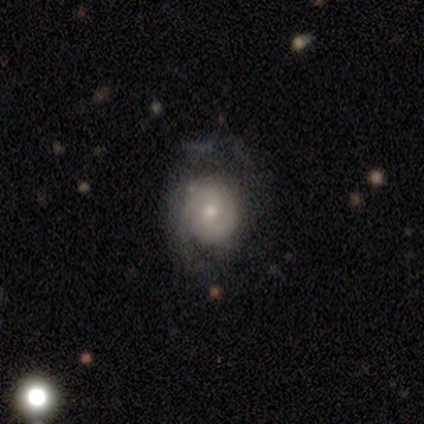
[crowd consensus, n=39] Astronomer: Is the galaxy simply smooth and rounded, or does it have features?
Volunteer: featured or disk — 77%.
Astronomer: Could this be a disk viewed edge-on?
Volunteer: no — 93%.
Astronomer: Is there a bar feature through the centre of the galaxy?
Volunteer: no — 68%.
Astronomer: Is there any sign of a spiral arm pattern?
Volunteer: yes — 96%.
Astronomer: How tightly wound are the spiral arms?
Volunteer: tight — 56% (runner-up: medium, 37%).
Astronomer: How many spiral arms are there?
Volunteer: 2 — 56%.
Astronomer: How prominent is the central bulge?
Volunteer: moderate — 46%, tied with small at 46%.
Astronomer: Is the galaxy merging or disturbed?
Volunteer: minor disturbance — 47% (runner-up: none, 44%).